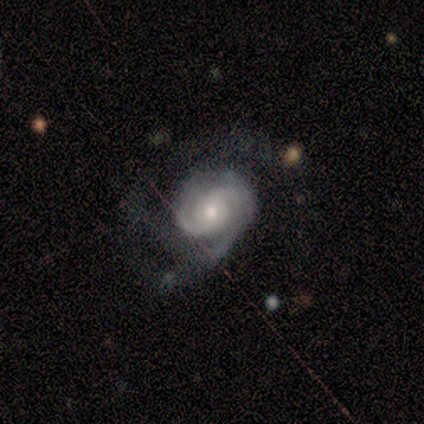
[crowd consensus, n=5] smooth-or-featured: featured or disk: 100% | smooth: 0% | star or artifact: 0%
  disk-edge-on: no: 100% | yes: 0%
    bar: no: 60% | strong: 20% | weak: 20%
    has-spiral-arms: yes: 100% | no: 0%
      spiral-winding: tight: 40% (tied) | medium: 40% (tied) | loose: 20%
      spiral-arm-count: 1: 40% (tied) | 2: 40% (tied) | can't tell: 20% | 3: 0% | 4: 0% | more than 4: 0%
    bulge-size: small: 60% | moderate: 40% | dominant: 0% | large: 0% | none: 0%
  merging: none: 60% | minor disturbance: 20% | major disturbance: 20% | merger: 0%